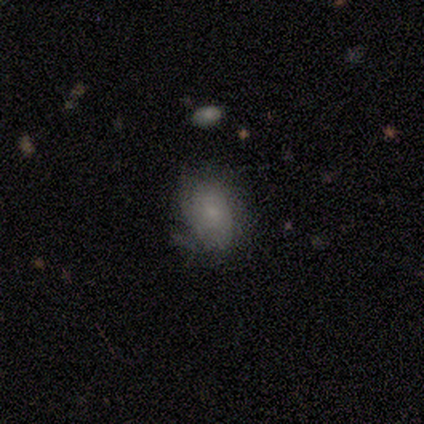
This appears to be a smooth galaxy with no disk features (65%) that is in between round and cigar-shaped (77%). Merging: minor disturbance (31%).